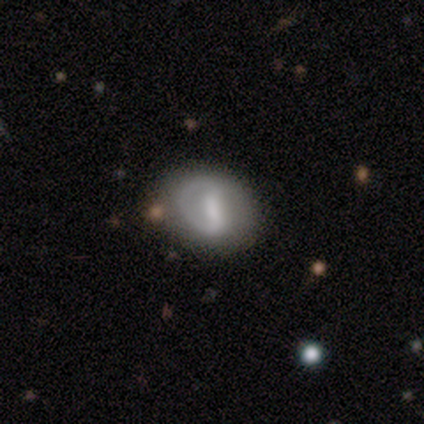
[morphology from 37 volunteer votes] Smooth or featured?
  - smooth: 46% * (tied)
  - featured or disk: 46% * (tied)
  - star or artifact: 8%
How rounded?
  - in between: 59% *
  - round: 41%
  - cigar-shaped: 0%
Merging?
  - none: 50% *
  - minor disturbance: 35%
  - major disturbance: 12%
  - merger: 3%